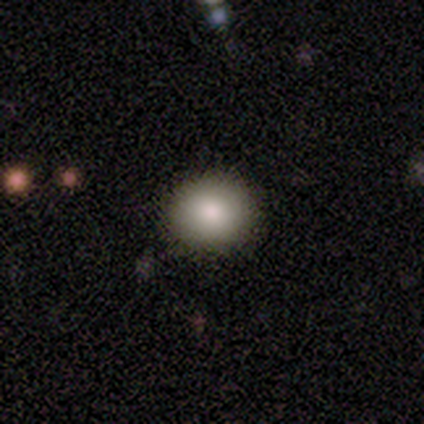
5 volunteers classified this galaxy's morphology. smooth 100%, featured or disk 0%, star or artifact 0%. Down the decision tree: how rounded — round (60%); merging — none (80%).